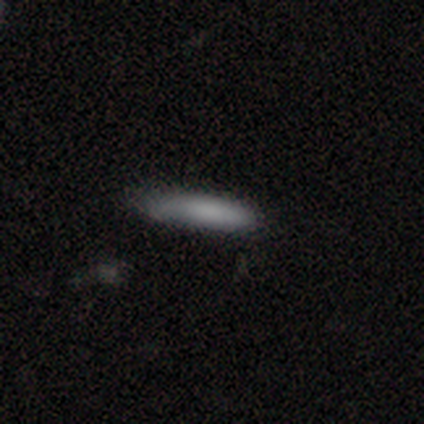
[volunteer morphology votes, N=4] Overall: smooth (100%). How rounded: cigar-shaped (100%). Merging: none (100%).